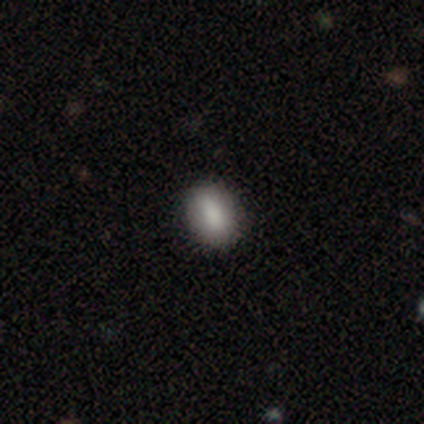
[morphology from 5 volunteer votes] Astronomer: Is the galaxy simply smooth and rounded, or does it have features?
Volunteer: smooth — 100%.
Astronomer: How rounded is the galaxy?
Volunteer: in between — 40%, tied with cigar-shaped at 40%.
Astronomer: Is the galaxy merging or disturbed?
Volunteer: none — 60% (runner-up: minor disturbance, 40%).